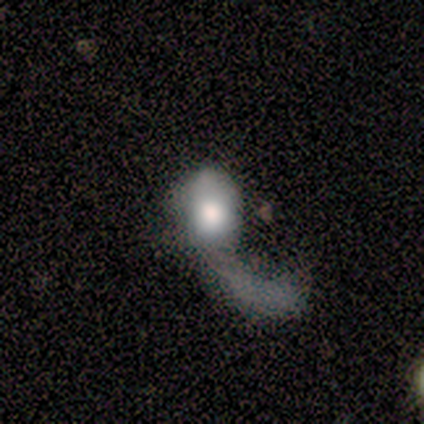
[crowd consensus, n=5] smooth_or_featured: smooth (p=0.80) [alt: featured or disk p=0.20]
how_rounded: in between (p=1.00)
merging: major disturbance (p=0.80) [alt: merger p=0.20]